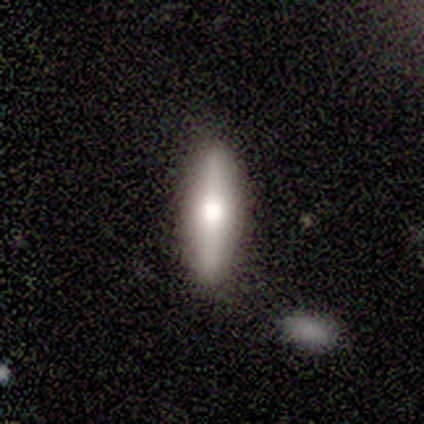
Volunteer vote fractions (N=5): smooth_or_featured: featured or disk (p=0.60) [alt: smooth p=0.40]
disk_edge_on: yes (p=1.00)
edge_on_bulge: rounded (p=1.00)
merging: none (p=0.80) [alt: merger p=0.20]